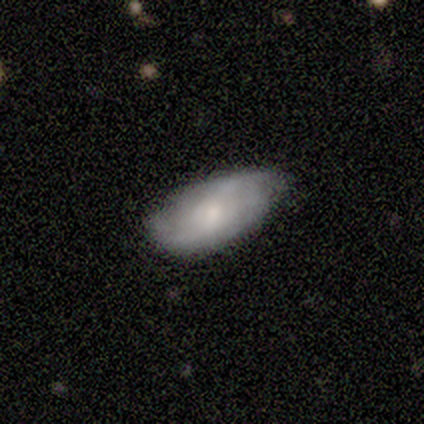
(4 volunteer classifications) Overall: featured or disk (100%). Edge-on disk: no (100%). Bar: no (100%). Spiral arms: yes (75%). Spiral arm count: 2 (67%; can't tell 33%). Spiral winding: tight (100%). Bulge size: moderate (75%). Merging: none (100%).